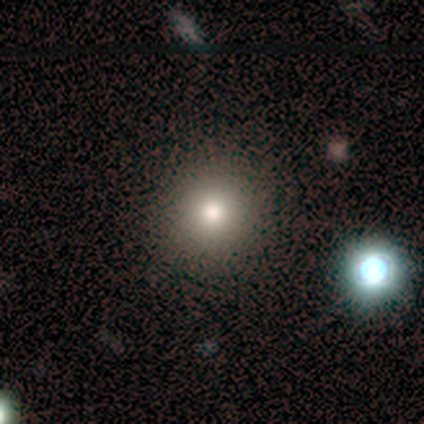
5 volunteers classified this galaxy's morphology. A smooth galaxy with no disk features (60%) that is round (100%). Merging: none (100%).